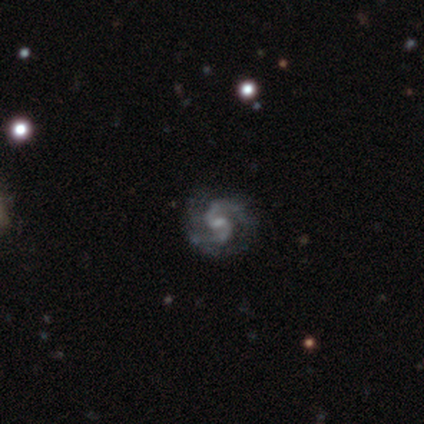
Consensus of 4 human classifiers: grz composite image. It shows a featured or disk galaxy (100%) with a weak bar (75%), 2 (75%) tight (50%, tied with medium) spiral arms (100%) and a small central bulge (50%). Merging: none (75%).